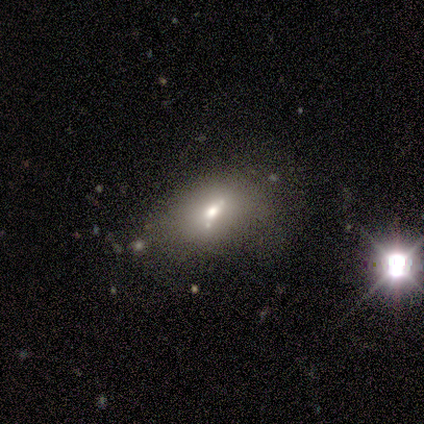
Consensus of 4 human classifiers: A star or artifact, not a galaxy (50%).